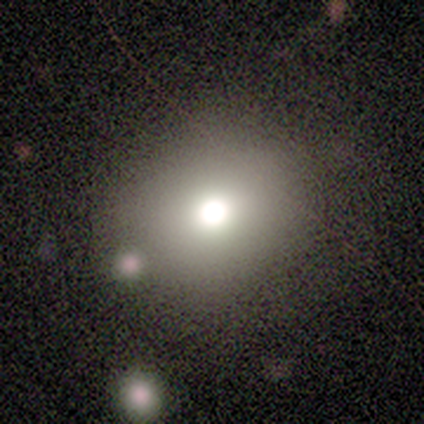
Smooth or featured? 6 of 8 (75%) said smooth. How rounded? 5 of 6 (83%) said round. Merging? 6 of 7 (86%) said none.